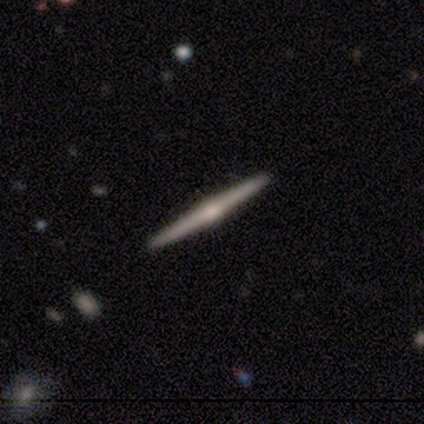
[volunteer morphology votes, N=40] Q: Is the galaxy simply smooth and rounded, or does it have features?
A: featured or disk — 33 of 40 (82%).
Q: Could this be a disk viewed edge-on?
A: yes — 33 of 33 (100%).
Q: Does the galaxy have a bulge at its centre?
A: rounded — 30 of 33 (91%).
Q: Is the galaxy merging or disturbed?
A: none — 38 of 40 (95%).